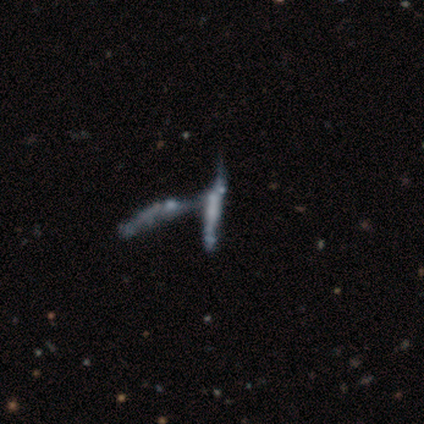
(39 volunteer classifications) smooth_or_featured: featured or disk (p=0.49) [alt: smooth p=0.31]
disk_edge_on: yes (p=0.53) [alt: no p=0.47]
edge_on_bulge: none (p=0.60) [alt: boxy p=0.30]
merging: merger (p=0.84) [alt: major disturbance p=0.10]